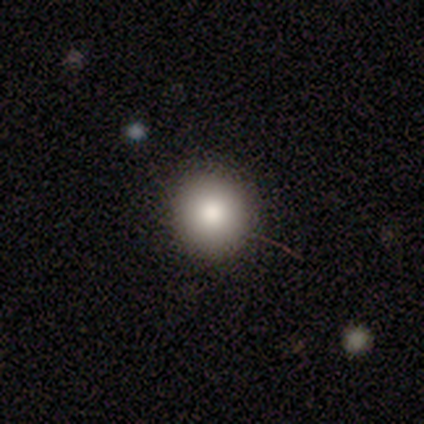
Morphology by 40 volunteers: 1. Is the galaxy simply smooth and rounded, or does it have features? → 85% smooth, 8% featured or disk, 8% star or artifact.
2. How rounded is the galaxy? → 91% round, 9% in between, 0% cigar-shaped.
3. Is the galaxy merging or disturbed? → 92% none, 5% major disturbance, 3% merger, 0% minor disturbance.